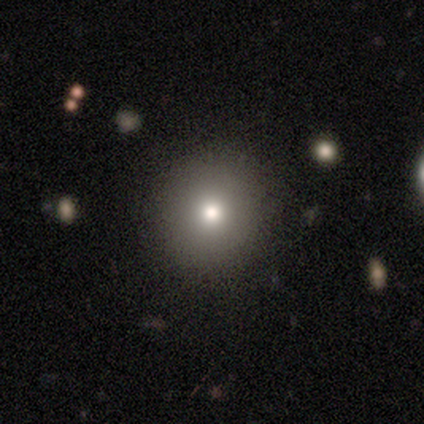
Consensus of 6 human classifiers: Overall: smooth (83%). How rounded: round (100%). Merging: none (100%).